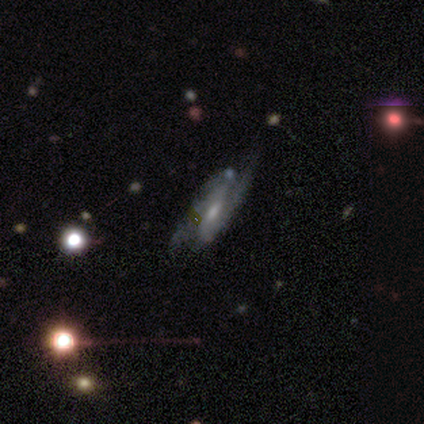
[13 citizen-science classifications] Q: Smooth or featured?
A: featured or disk (69%); runner-up: star or artifact (31%)
Q: Edge-on disk?
A: no (100%)
Q: Bar?
A: weak (56%); runner-up: no (33%)
Q: Spiral arms?
A: yes (100%)
Q: Spiral winding?
A: medium (78%); runner-up: loose (22%)
Q: Spiral arm count?
A: 2 (78%); runner-up: 1 (11%)
Q: Bulge size?
A: small (56%); runner-up: moderate (44%)
Q: Merging?
A: none (89%); runner-up: minor disturbance (11%)